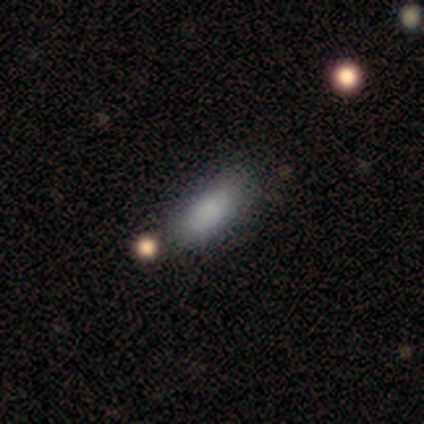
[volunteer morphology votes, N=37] Smooth or featured? 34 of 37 (92%) said smooth. How rounded? 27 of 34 (79%) said in between. Merging? 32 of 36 (89%) said none.